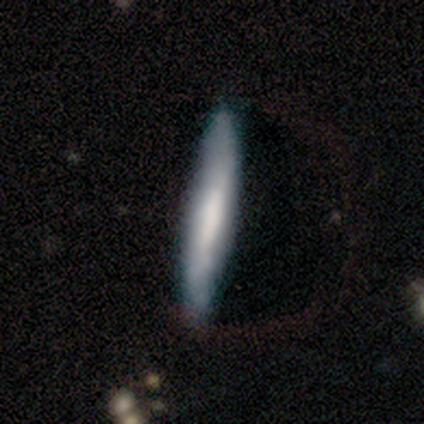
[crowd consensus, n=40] featured or disk 52%, smooth 42%, star or artifact 5%. Down the decision tree: edge-on disk — yes (81%); edge-on bulge — none (47%); merging — none (74%).